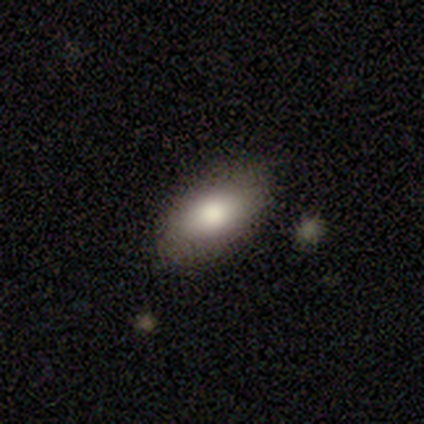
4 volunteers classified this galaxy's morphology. Smooth or featured?
  - smooth: 75% *
  - featured or disk: 25%
  - star or artifact: 0%
How rounded?
  - in between: 100% *
  - round: 0%
  - cigar-shaped: 0%
Merging?
  - none: 75% *
  - minor disturbance: 25%
  - major disturbance: 0%
  - merger: 0%